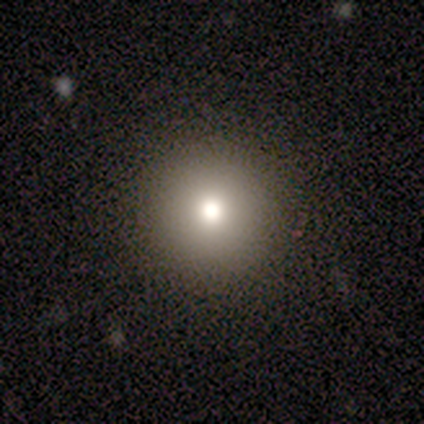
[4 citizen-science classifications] A smooth galaxy with no disk features (50%, tied with featured or disk) that is round (100%).

Vote fractions:
- Smooth or featured? smooth: 50% (tied) / featured or disk: 50% (tied) / star or artifact: 0%
- How rounded? round: 100% / in between: 0% / cigar-shaped: 0%
- Merging? none: 75% / minor disturbance: 25% / major disturbance: 0% / merger: 0%